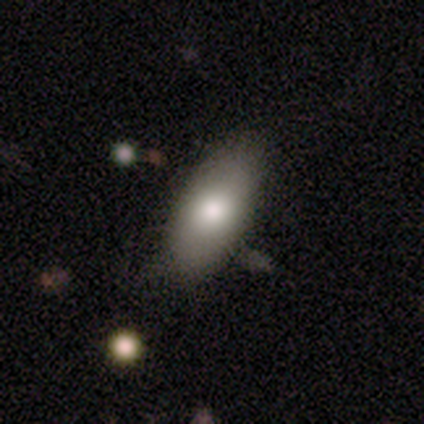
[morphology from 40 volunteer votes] This appears to be a smooth galaxy with no disk features (90%) that is in between round and cigar-shaped (92%). Merging: none (50%).